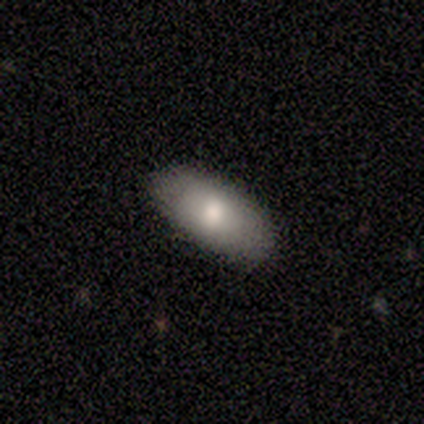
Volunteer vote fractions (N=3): This appears to be a smooth galaxy with no disk features (67%) that is in between round and cigar-shaped (100%). Merging: none (100%).